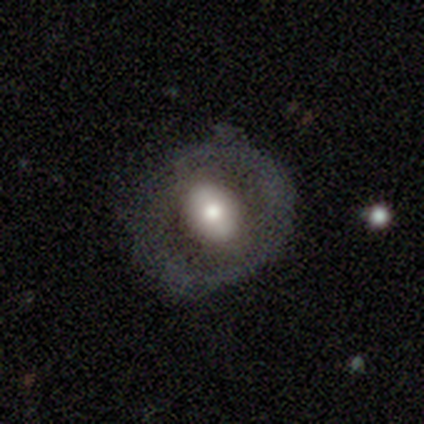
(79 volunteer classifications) smooth_or_featured: featured or disk (p=0.54) [alt: smooth p=0.43]
disk_edge_on: no (p=0.93) [alt: yes p=0.07]
bar: no (p=0.53) [alt: weak p=0.33]
has_spiral_arms: no (p=0.90) [alt: yes p=0.10]
bulge_size: moderate (p=0.47) [alt: large p=0.45]
merging: none (p=0.31) [alt: minor disturbance p=0.14]